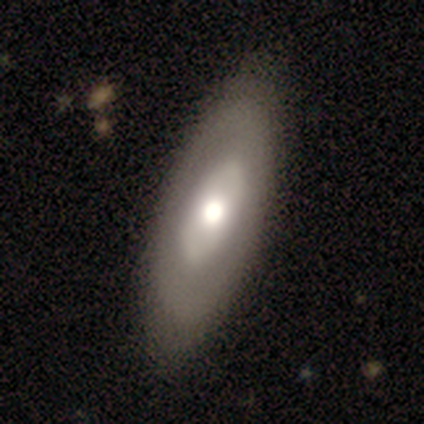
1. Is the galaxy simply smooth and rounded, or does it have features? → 60% featured or disk, 40% smooth, 0% star or artifact.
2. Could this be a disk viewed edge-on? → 100% no, 0% yes.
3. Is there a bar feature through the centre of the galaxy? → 67% no, 33% weak, 0% strong.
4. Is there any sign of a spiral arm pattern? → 67% no, 33% yes.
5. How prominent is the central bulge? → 67% large, 33% moderate, 0% dominant, 0% small, 0% none.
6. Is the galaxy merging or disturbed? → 100% none, 0% minor disturbance, 0% major disturbance, 0% merger.